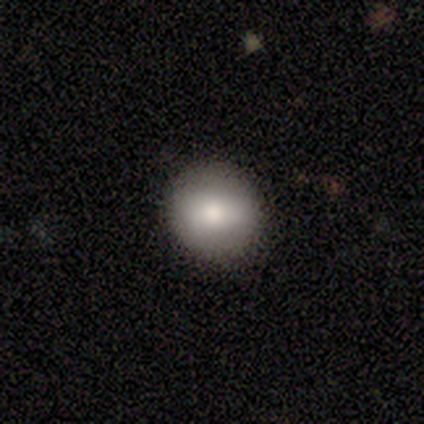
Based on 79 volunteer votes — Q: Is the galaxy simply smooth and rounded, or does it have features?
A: smooth — 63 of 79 (80%).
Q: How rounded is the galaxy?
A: round — 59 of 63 (94%).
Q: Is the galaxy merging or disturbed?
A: none — 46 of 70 (66%).